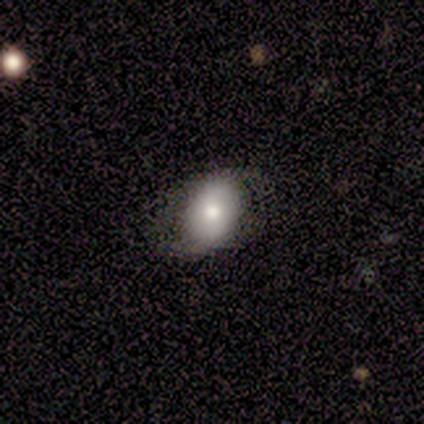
smooth_or_featured: smooth (p=1.00)
how_rounded: in between (p=1.00)
merging: none (p=0.50) [tied with: minor disturbance p=0.50]